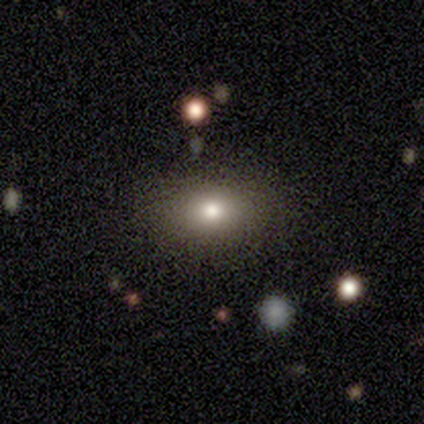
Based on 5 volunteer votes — This is likely a smooth galaxy (60%). How rounded: likely in between (67%). Merging: clearly none (80%).